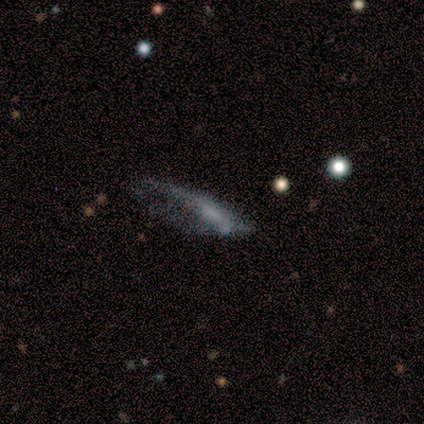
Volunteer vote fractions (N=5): Smooth or featured? 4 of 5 (80%) said featured or disk. Edge-on disk? 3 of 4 (75%) said no. Bar? 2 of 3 (67%) said weak. Spiral arms? 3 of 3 (100%) said no. Bulge size? 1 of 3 (33%, tied with small and none) said moderate. Merging? 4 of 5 (80%) said major disturbance.